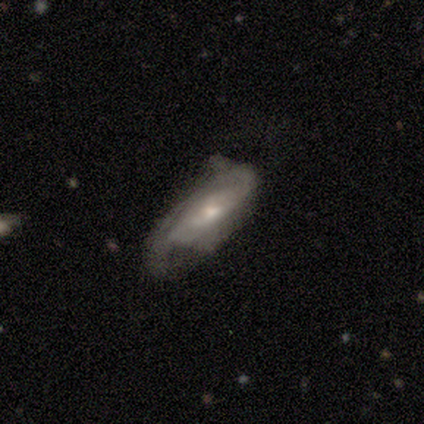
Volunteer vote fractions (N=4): A smooth galaxy with no disk features (50%, tied with featured or disk) that is in between round and cigar-shaped (50%, tied with cigar-shaped).

Vote fractions:
- Smooth or featured? smooth: 50% (tied) / featured or disk: 50% (tied) / star or artifact: 0%
- How rounded? in between: 50% (tied) / cigar-shaped: 50% (tied) / round: 0%
- Merging? minor disturbance: 50% / none: 25% / major disturbance: 25% / merger: 0%